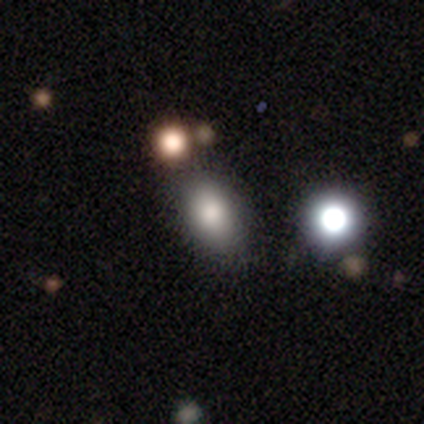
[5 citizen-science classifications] This appears to be a smooth galaxy with no disk features (100%) that is in between round and cigar-shaped (80%). Merging: none (60%).